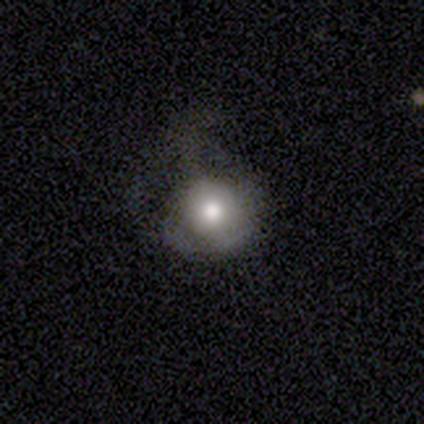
Morphology: type=smooth (78%); roundness=round (83%); merging=none (36%).